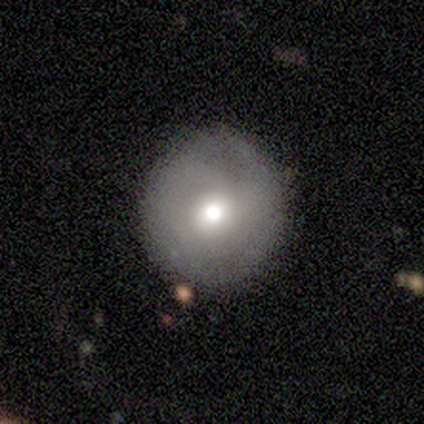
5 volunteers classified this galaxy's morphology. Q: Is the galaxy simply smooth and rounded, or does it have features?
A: featured or disk — 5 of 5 (100%).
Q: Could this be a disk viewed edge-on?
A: no — 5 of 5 (100%).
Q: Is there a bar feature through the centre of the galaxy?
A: no — 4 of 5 (80%).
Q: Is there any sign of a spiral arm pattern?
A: no — 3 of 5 (60%).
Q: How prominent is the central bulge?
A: moderate — 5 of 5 (100%).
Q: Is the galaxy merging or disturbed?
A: none — 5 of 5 (100%).